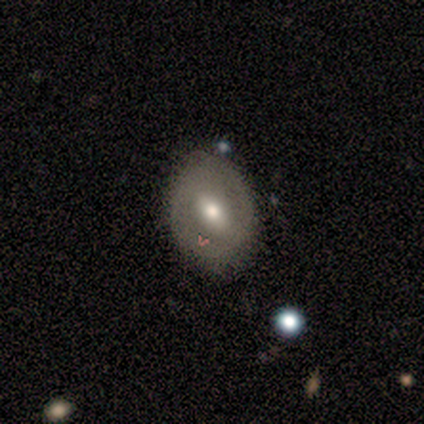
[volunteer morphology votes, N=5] type=smooth (80%); roundness=in between (75%); merging=none (100%).